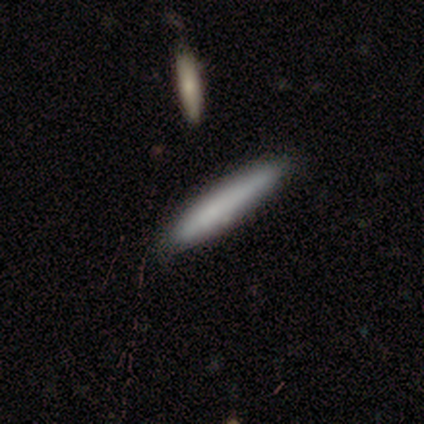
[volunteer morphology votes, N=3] smooth-or-featured: smooth: 67% | featured or disk: 33% | star or artifact: 0%
  how-rounded: cigar-shaped: 100% | round: 0% | in between: 0%
  merging: none: 100% | minor disturbance: 0% | major disturbance: 0% | merger: 0%